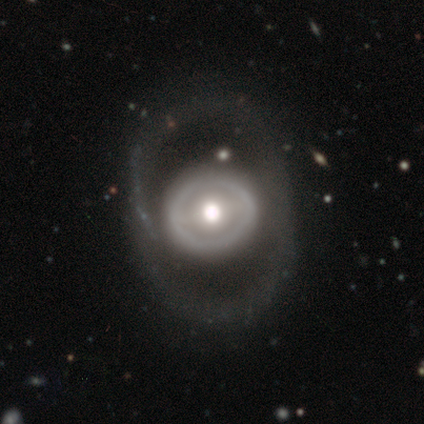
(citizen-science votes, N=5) smooth_or_featured: featured or disk (p=0.80) [alt: smooth p=0.20]
disk_edge_on: no (p=1.00)
bar: no (p=0.75) [alt: weak p=0.25]
has_spiral_arms: no (p=1.00)
bulge_size: moderate (p=1.00)
merging: none (p=0.80) [alt: minor disturbance p=0.20]